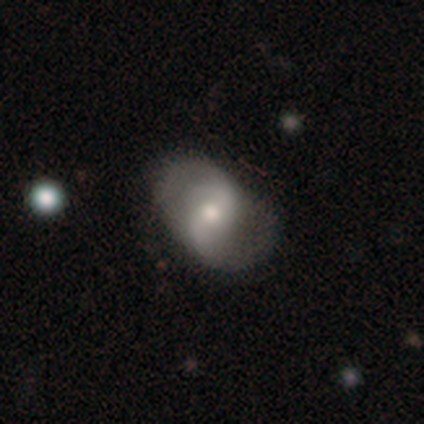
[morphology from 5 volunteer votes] Smooth or featured?
  - featured or disk: 100% *
  - smooth: 0%
  - star or artifact: 0%
Edge-on disk?
  - no: 100% *
  - yes: 0%
Bar?
  - strong: 40% * (tied)
  - weak: 40% * (tied)
  - no: 20%
Spiral arms?
  - yes: 100% *
  - no: 0%
Spiral winding?
  - loose: 80% *
  - medium: 20%
  - tight: 0%
Spiral arm count?
  - 2: 80% *
  - 1: 20%
  - 3: 0%
  - 4: 0%
  - more than 4: 0%
  - can't tell: 0%
Bulge size?
  - small: 60% *
  - moderate: 40%
  - dominant: 0%
  - large: 0%
  - none: 0%
Merging?
  - none: 60% *
  - minor disturbance: 40%
  - major disturbance: 0%
  - merger: 0%